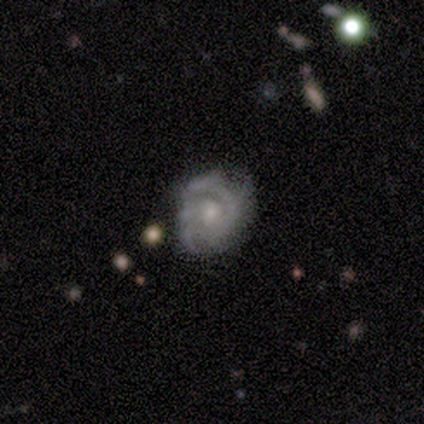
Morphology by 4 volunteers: Smooth or featured? 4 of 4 (100%) said featured or disk. Edge-on disk? 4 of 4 (100%) said no. Bar? 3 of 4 (75%) said no. Spiral arms? 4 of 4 (100%) said yes. Spiral winding? 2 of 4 (50%) said medium. Spiral arm count? 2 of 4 (50%) said 2. Bulge size? 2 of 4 (50%, tied with small) said moderate. Merging? 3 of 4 (75%) said none.